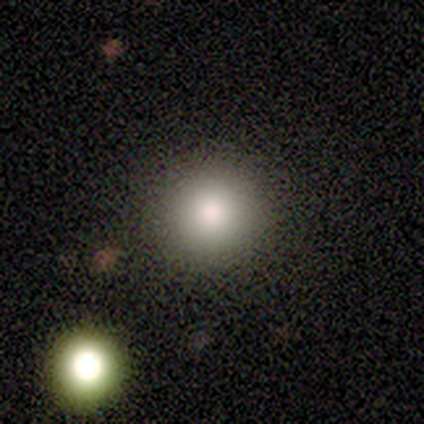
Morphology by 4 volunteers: Smooth or featured: smooth — 100%
How rounded: round — 100%
Merging: none — 100%